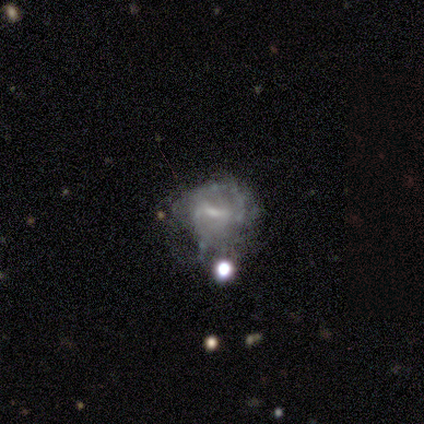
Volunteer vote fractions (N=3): A featured or disk galaxy (100%) with a weak bar (67%), 2 (100%) loose (100%) spiral arms (67%) and a small central bulge (67%). Merging: none (67%).